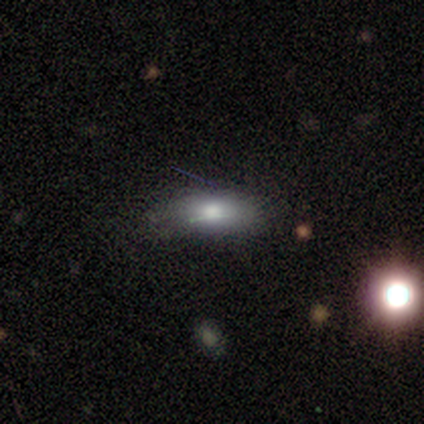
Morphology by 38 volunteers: smooth_or_featured: smooth (p=0.76) [alt: star or artifact p=0.13]
how_rounded: in between (p=0.86) [alt: cigar-shaped p=0.14]
merging: none (p=0.73) [alt: minor disturbance p=0.24]